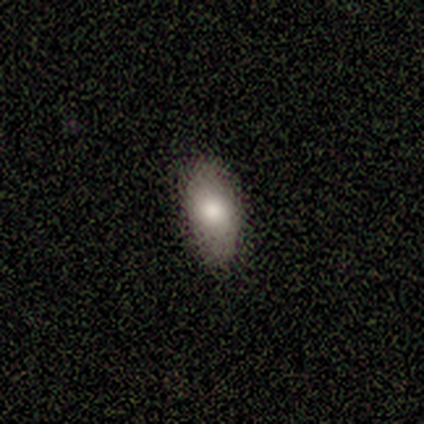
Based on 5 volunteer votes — Morphology: type=smooth (80%); roundness=in between (100%); merging=none (75%).